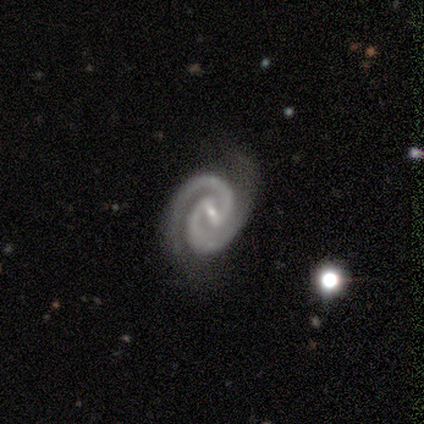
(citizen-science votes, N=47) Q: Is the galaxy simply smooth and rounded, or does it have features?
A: featured or disk — 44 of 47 (94%).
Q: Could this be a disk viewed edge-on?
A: no — 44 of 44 (100%).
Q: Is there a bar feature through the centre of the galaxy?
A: weak — 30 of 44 (68%).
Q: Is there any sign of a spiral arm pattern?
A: yes — 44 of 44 (100%).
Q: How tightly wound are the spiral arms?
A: tight — 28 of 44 (64%).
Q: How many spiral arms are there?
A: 2 — 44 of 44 (100%).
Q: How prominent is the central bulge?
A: small — 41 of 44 (93%).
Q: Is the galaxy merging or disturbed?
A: none — 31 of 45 (69%).